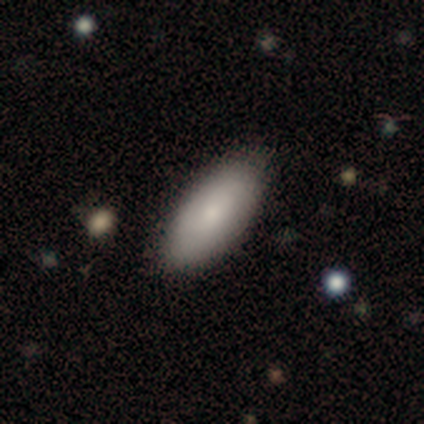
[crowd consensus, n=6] Smooth or featured? smooth (83%)
How rounded? in between (80%)
Merging? none (100%)